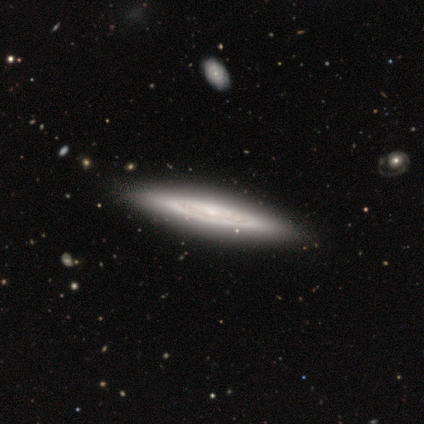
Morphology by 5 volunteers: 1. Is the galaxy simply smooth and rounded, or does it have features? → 40% smooth (tied), 40% featured or disk (tied), 20% star or artifact.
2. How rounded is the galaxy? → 100% in between, 0% round, 0% cigar-shaped.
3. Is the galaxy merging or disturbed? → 75% none, 25% minor disturbance, 0% major disturbance, 0% merger.